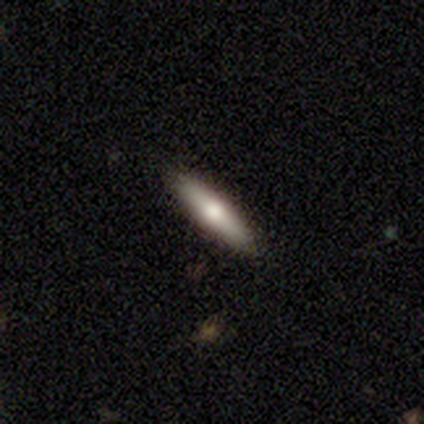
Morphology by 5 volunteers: A featured or disk galaxy (60%) viewed edge-on (100%) with a rounded central bulge (100%). Merging: none (100%).